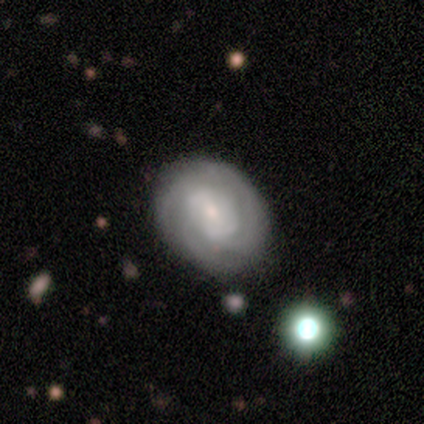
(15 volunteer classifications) Q: Smooth or featured?
A: featured or disk (80%); runner-up: smooth (13%)
Q: Edge-on disk?
A: no (100%)
Q: Bar?
A: no (75%); runner-up: weak (25%)
Q: Spiral arms?
A: yes (83%); runner-up: no (17%)
Q: Spiral winding?
A: tight (70%); runner-up: medium (20%)
Q: Spiral arm count?
A: 3 (60%); runner-up: 4 (20%)
Q: Bulge size?
A: small (75%); runner-up: moderate (25%)
Q: Merging?
A: none (79%); runner-up: minor disturbance (14%)